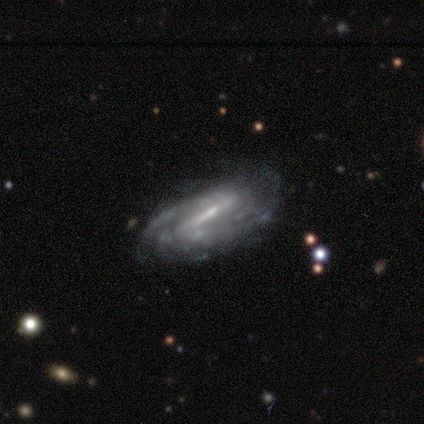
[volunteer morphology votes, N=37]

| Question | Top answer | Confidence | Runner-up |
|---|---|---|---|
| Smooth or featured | featured or disk | 84% | star or artifact (11%) |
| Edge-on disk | no | 90% | yes (10%) |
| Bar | strong | 54% | weak (39%) |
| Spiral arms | yes | 89% | no (11%) |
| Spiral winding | tight | 52% | medium (36%) |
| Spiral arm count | can't tell | 56% | 2 (32%) |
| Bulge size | small | 79% | none (18%) |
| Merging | none | 45% | minor disturbance (39%) |